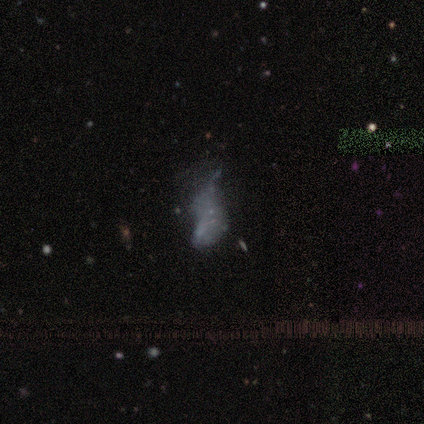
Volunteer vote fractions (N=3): Smooth or featured: featured or disk — 100%
Edge-on disk: no — 100%
Bar: no — 100%
Spiral arms: no — 100%
Bulge size: none — 100%
Merging: major disturbance — 100%